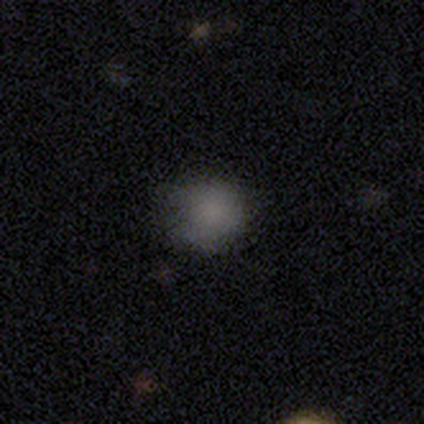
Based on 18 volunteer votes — Q: Smooth or featured?
A: smooth (83%); runner-up: star or artifact (11%)
Q: How rounded?
A: round (80%); runner-up: in between (20%)
Q: Merging?
A: none (69%); runner-up: minor disturbance (19%)